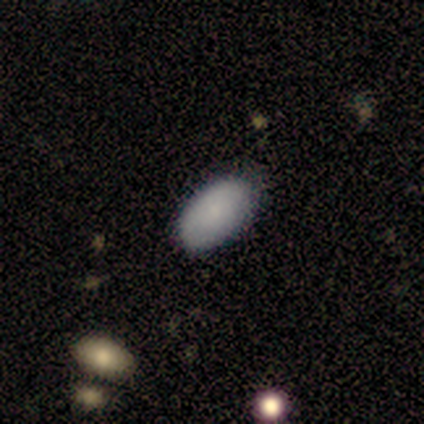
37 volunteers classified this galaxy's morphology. Smooth or featured?
  - smooth: 78% *
  - featured or disk: 16%
  - star or artifact: 5%
How rounded?
  - in between: 93% *
  - round: 3%
  - cigar-shaped: 3%
Merging?
  - none: 74% *
  - minor disturbance: 23%
  - major disturbance: 3%
  - merger: 0%